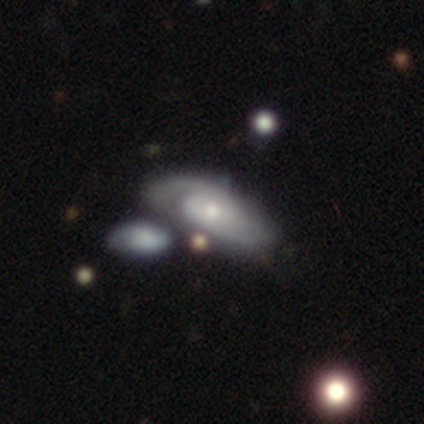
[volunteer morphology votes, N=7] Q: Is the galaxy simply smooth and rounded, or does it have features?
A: featured or disk — 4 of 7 (57%).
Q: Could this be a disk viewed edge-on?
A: no — 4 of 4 (100%).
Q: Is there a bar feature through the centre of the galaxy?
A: no — 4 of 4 (100%).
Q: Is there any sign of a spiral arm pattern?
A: yes — 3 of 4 (75%).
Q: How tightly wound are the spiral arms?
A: medium — 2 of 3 (67%).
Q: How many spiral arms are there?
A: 2 — 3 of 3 (100%).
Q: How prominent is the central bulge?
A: moderate — 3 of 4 (75%).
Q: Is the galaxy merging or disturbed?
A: minor disturbance — 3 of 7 (43%, tied with merger).